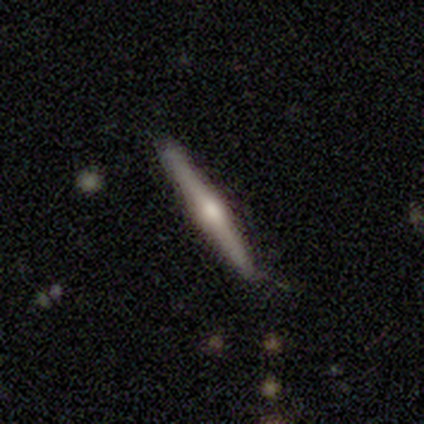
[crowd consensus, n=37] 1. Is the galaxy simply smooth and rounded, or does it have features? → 76% featured or disk, 19% smooth, 5% star or artifact.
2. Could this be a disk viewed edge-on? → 100% yes, 0% no.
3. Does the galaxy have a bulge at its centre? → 89% rounded, 7% boxy, 4% none.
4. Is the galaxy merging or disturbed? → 91% none, 9% minor disturbance, 0% major disturbance, 0% merger.